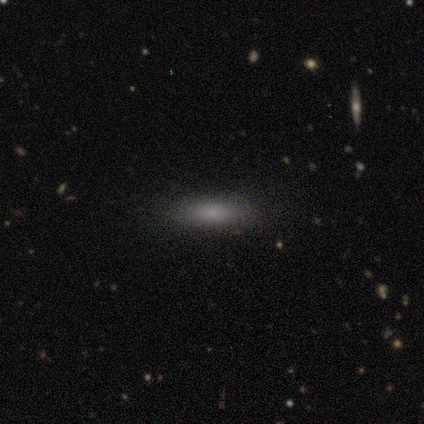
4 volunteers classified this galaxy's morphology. Volunteers were most divided on "how rounded" (2-way tie): in between: 50%, cigar-shaped: 50%, round: 0%. More confident: smooth or featured — smooth (100%); merging — none (100%).